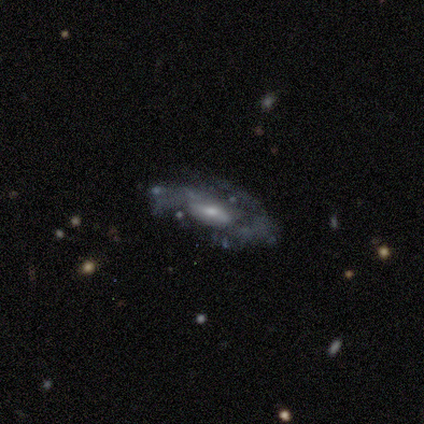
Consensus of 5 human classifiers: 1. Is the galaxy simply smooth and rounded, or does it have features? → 80% featured or disk, 20% smooth, 0% star or artifact.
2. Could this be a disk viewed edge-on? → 75% no, 25% yes.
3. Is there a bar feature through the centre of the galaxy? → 67% no, 33% weak, 0% strong.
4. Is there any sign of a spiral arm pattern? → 67% no, 33% yes.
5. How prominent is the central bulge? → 100% small, 0% dominant, 0% large, 0% moderate, 0% none.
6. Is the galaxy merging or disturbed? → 80% none, 20% minor disturbance, 0% major disturbance, 0% merger.